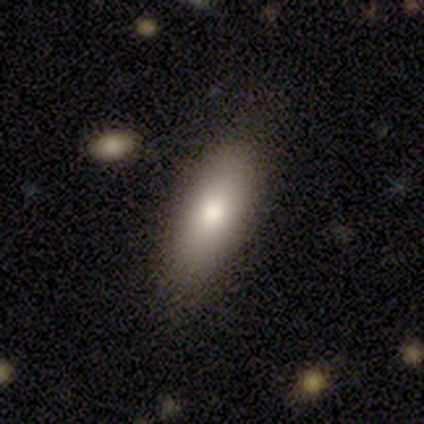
Smooth or featured: smooth — 78% (featured or disk — 22%)
How rounded: in between — 71% (cigar-shaped — 29%)
Merging: none — 89% (minor disturbance — 11%)